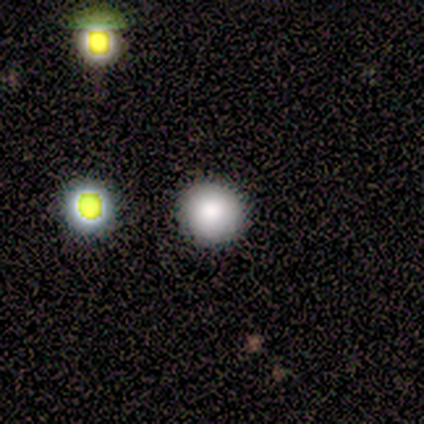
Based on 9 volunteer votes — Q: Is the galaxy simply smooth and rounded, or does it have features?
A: smooth — 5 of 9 (56%).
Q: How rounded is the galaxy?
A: round — 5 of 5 (100%).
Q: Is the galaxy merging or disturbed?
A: none — 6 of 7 (86%).